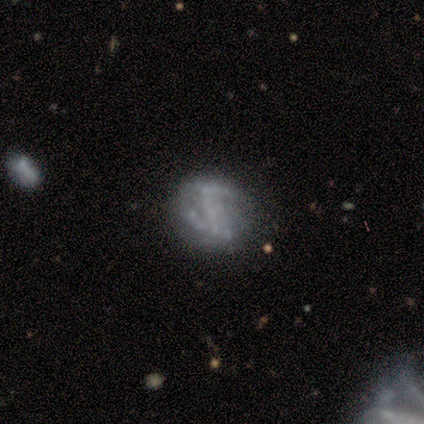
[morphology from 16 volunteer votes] Smooth or featured?
  - featured or disk: 75% *
  - star or artifact: 25%
  - smooth: 0%
Edge-on disk?
  - no: 100% *
  - yes: 0%
Bar?
  - no: 75% *
  - weak: 17%
  - strong: 8%
Spiral arms?
  - no: 67% *
  - yes: 33%
Bulge size?
  - none: 83% *
  - moderate: 8%
  - small: 8%
  - dominant: 0%
  - large: 0%
Merging?
  - none: 58% *
  - minor disturbance: 33%
  - major disturbance: 8%
  - merger: 0%